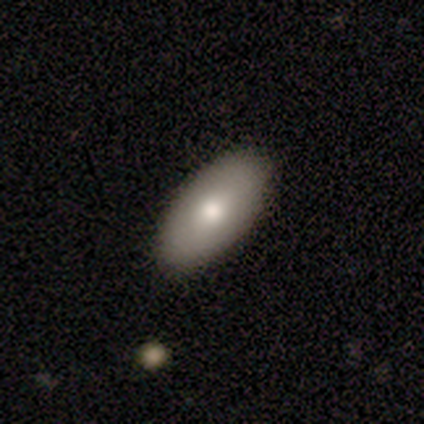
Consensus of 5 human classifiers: Volunteers were most divided on "bulge size" (2-way tie): large: 50%, moderate: 50%, dominant: 0%, small: 0%, none: 0%. More confident: edge-on disk — no (100%); bar — no (100%); spiral arms — no (100%); merging — none (100%); smooth or featured — featured or disk (80%).